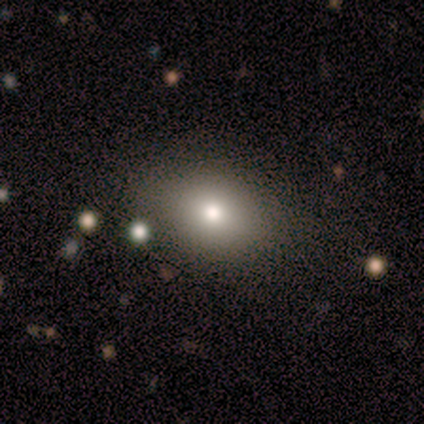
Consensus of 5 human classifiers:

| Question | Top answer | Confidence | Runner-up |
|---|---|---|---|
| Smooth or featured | smooth | 80% | star or artifact (20%) |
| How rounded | round | 50% | tied: in between (50%) |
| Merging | none | 75% | minor disturbance (25%) |